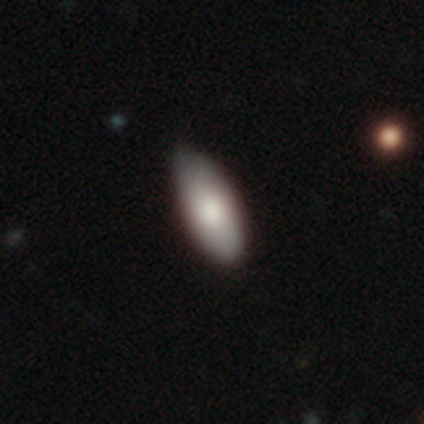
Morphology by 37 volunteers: Volunteers were most divided on "merging": none: 83%, minor disturbance: 17%, major disturbance: 0%, merger: 0%. More confident: how rounded — in between (90%); smooth or featured — smooth (84%).